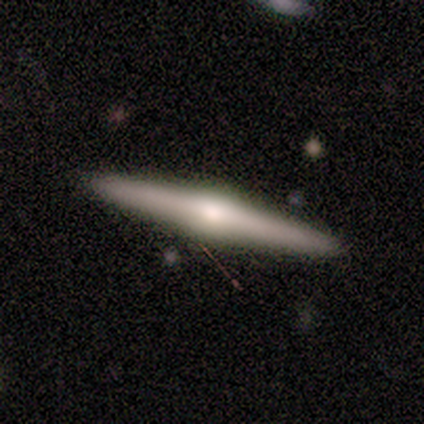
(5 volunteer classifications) This is likely a featured or disk galaxy (60%). It is clearly viewed edge-on (100%). Edge-on bulge: clearly rounded (100%). Merging: clearly none (100%).